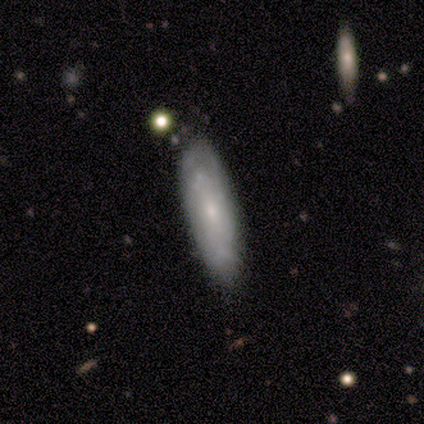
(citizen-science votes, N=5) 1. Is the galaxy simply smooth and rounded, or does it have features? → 60% featured or disk, 20% smooth, 20% star or artifact.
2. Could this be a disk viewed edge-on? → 100% no, 0% yes.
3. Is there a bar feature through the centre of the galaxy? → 100% no, 0% strong, 0% weak.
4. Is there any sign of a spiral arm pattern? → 67% yes, 33% no.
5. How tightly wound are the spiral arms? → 100% medium, 0% tight, 0% loose.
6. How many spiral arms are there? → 100% can't tell, 0% 1, 0% 2, 0% 3, 0% 4, 0% more than 4.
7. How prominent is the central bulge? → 100% small, 0% dominant, 0% large, 0% moderate, 0% none.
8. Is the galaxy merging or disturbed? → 75% none, 25% major disturbance, 0% minor disturbance, 0% merger.